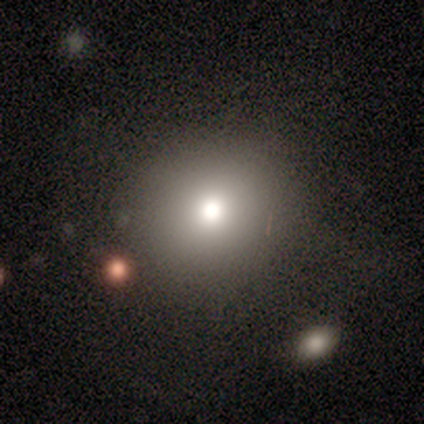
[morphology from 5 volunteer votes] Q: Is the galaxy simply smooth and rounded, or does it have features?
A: smooth — 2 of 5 (40%, tied with featured or disk).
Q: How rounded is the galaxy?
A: round — 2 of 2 (100%).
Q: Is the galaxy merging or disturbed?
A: none — 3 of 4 (75%).